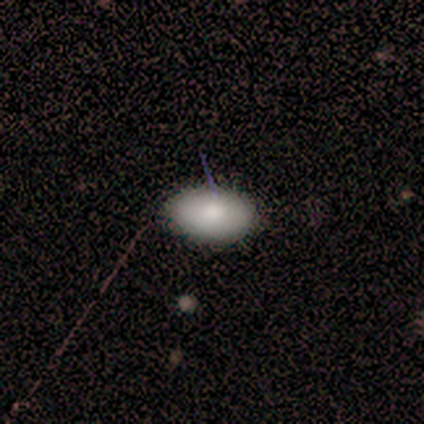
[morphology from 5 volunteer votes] Q: Smooth or featured?
A: smooth (80%); runner-up: featured or disk (20%)
Q: How rounded?
A: in between (100%)
Q: Merging?
A: none (100%)